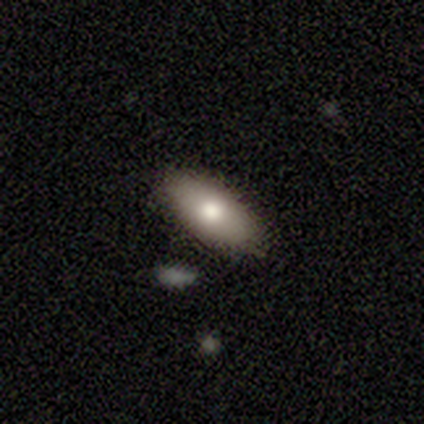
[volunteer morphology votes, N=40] Overall: smooth (82%). How rounded: in between (88%). Merging: none (90%).